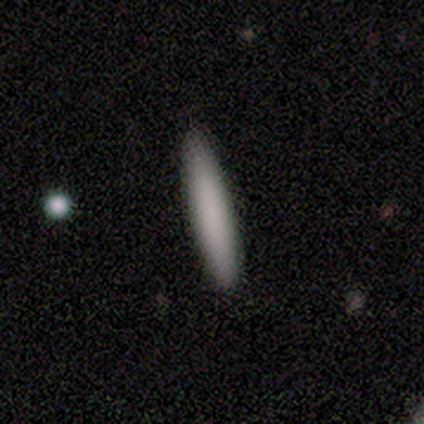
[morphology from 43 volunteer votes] smooth_or_featured: smooth (p=0.74) [alt: featured or disk p=0.14]
how_rounded: cigar-shaped (p=0.97) [alt: in between p=0.03]
merging: none (p=1.00)